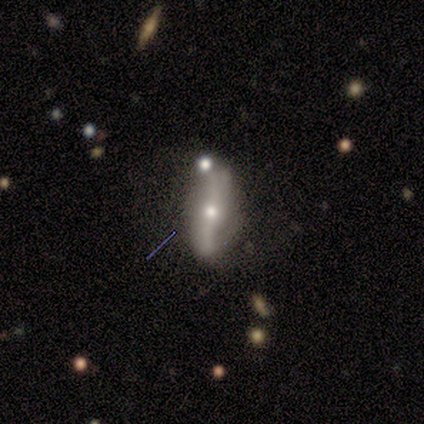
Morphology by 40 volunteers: type=featured or disk (82%); edge-on=no (82%); bar=strong (52%); spiral arms=yes (74%); winding=loose (80%); arm count=2 (90%); bulge=moderate (63%); merging=none (54%).